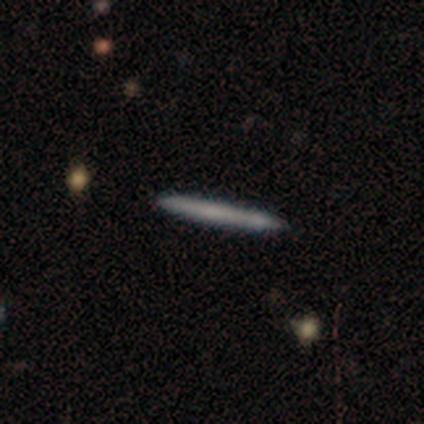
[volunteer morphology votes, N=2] Overall: smooth (50%, tied with featured or disk). How rounded: cigar-shaped (100%). Merging: none (100%).